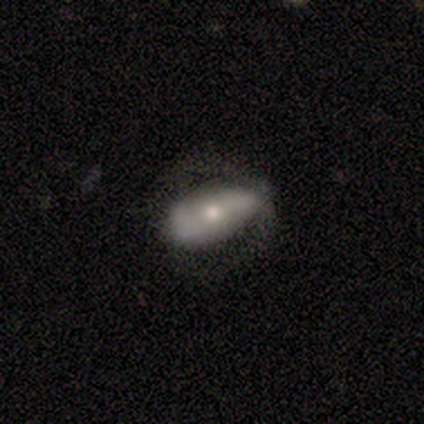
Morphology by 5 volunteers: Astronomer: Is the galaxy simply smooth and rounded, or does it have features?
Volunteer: featured or disk — 60%.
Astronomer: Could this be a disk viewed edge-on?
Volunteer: no — 67%.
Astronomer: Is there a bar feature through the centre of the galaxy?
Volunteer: weak — 100%.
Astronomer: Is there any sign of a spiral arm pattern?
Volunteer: yes — 100%.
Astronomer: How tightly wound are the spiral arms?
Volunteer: medium — 100%.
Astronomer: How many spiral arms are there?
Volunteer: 2 — 50%, tied with can't tell at 50%.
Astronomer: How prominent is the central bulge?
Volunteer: moderate — 100%.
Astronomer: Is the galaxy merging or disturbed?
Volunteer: none — 75%.